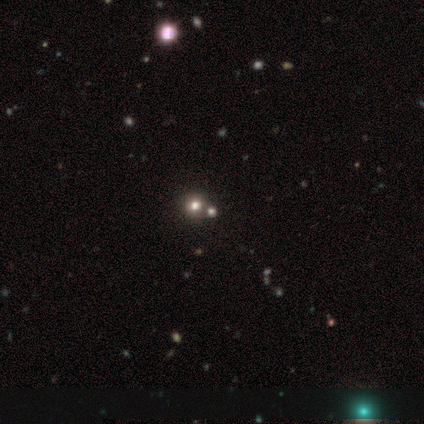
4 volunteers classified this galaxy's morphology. featured or disk 75%, star or artifact 25%, smooth 0%. Down the decision tree: edge-on disk — no (100%); bar — no (100%); spiral arms — no (100%); bulge size — large (100%); merging — merger (100%).